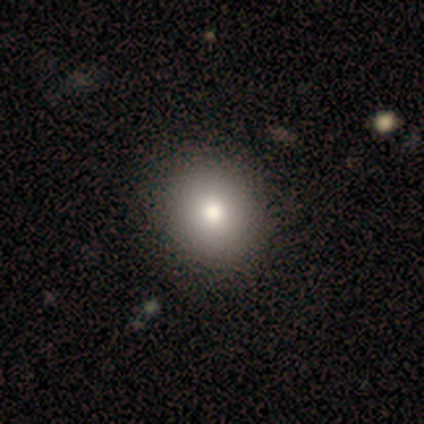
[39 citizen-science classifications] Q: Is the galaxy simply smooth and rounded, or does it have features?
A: smooth — 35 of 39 (90%).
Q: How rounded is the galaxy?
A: round — 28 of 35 (80%).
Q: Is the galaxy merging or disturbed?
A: none — 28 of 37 (76%).